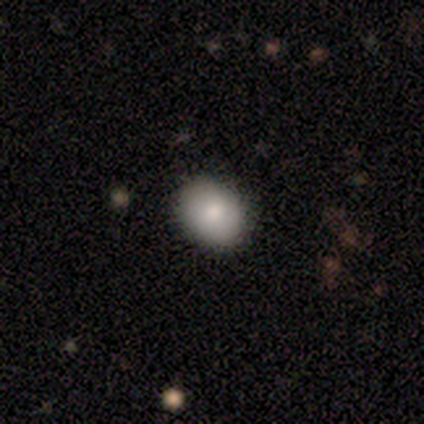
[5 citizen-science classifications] A smooth galaxy with no disk features (60%) that is in between round and cigar-shaped (67%).

Vote fractions:
- Smooth or featured? smooth: 60% / featured or disk: 20% / star or artifact: 20%
- How rounded? in between: 67% / round: 33% / cigar-shaped: 0%
- Merging? none: 100% / minor disturbance: 0% / major disturbance: 0% / merger: 0%